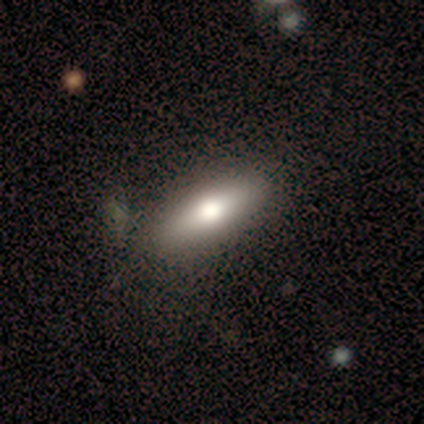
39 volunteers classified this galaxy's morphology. smooth_or_featured: smooth (p=0.67) [alt: featured or disk p=0.33]
how_rounded: in between (p=0.46) [tied with: cigar-shaped p=0.46]
merging: none (p=0.51) [alt: minor disturbance p=0.13]